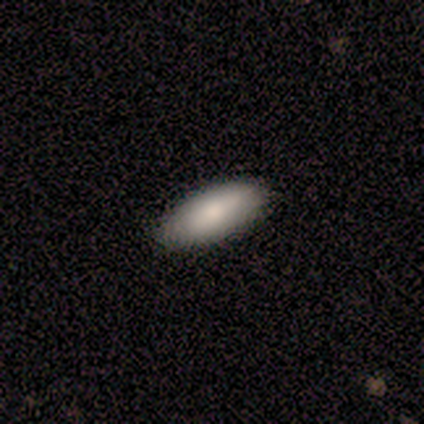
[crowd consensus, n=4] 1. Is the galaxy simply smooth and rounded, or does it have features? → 75% smooth, 25% featured or disk, 0% star or artifact.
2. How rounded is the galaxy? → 100% in between, 0% round, 0% cigar-shaped.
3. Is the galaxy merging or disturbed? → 100% none, 0% minor disturbance, 0% major disturbance, 0% merger.